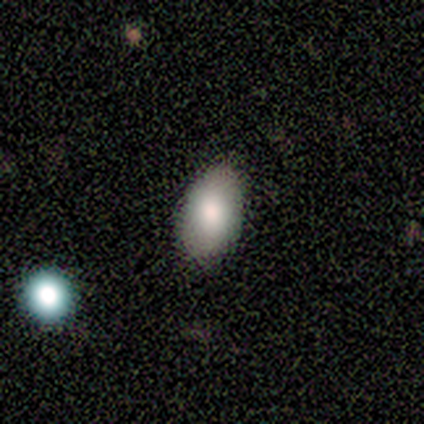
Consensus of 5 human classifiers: Smooth or featured: smooth — 100%
How rounded: in between — 100%
Merging: none — 100%